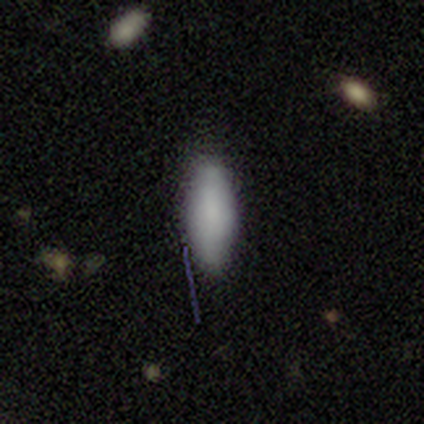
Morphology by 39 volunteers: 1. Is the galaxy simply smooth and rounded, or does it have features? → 87% smooth, 8% featured or disk, 5% star or artifact.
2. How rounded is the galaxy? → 74% in between, 26% cigar-shaped, 0% round.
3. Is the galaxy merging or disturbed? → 70% none, 27% minor disturbance, 3% major disturbance, 0% merger.